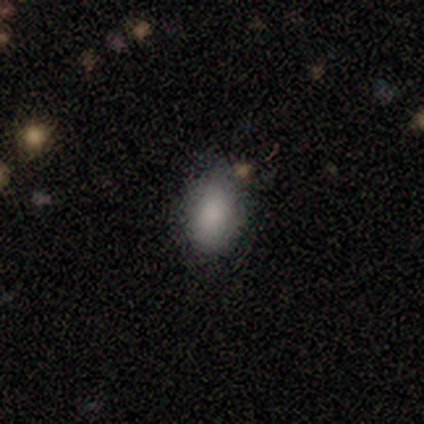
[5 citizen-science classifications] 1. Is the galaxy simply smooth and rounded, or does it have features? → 100% smooth, 0% featured or disk, 0% star or artifact.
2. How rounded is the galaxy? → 60% in between, 40% round, 0% cigar-shaped.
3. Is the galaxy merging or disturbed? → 40% none (tied), 40% minor disturbance (tied), 20% merger, 0% major disturbance.